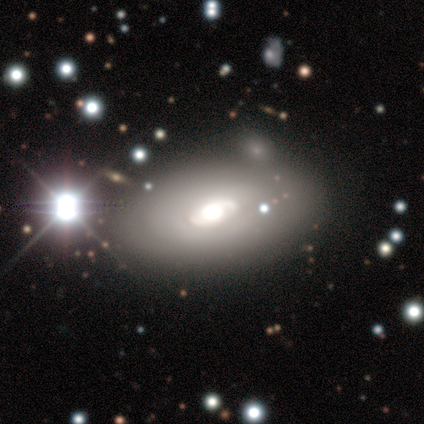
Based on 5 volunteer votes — featured or disk 60%, smooth 20%, star or artifact 20%. Down the decision tree: edge-on disk — no (100%); bar — no (100%); spiral arms — no (67%); bulge size — dominant (33%, tied with moderate and small); merging — none (75%).